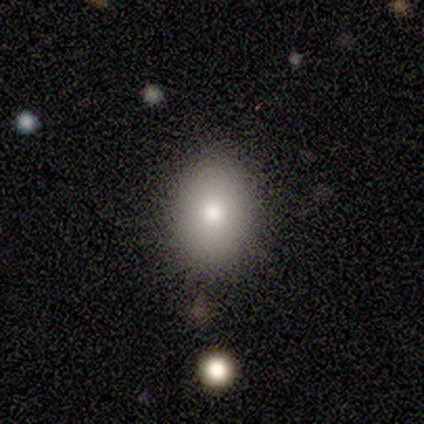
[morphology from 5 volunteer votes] Smooth or featured? smooth (80%)
How rounded? in between (100%)
Merging? none (80%)